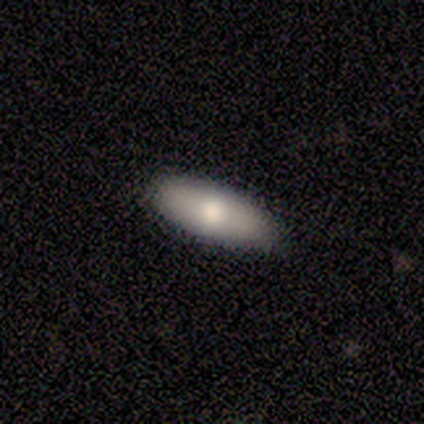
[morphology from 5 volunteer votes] smooth 40% (tied), featured or disk 40% (tied), star or artifact 20%. Down the decision tree: how rounded — in between (50%, tied with cigar-shaped); merging — none (100%).